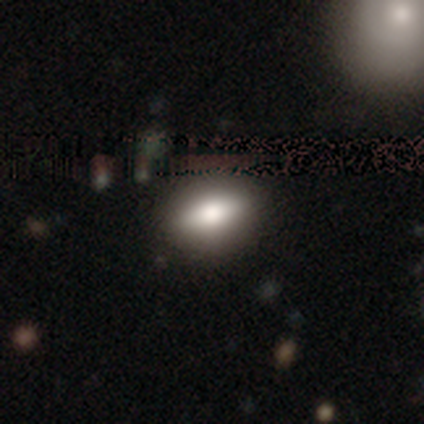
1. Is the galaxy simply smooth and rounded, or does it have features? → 70% smooth, 20% star or artifact, 10% featured or disk.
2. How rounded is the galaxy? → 100% in between, 0% round, 0% cigar-shaped.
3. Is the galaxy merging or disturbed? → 62% none, 38% minor disturbance, 0% major disturbance, 0% merger.